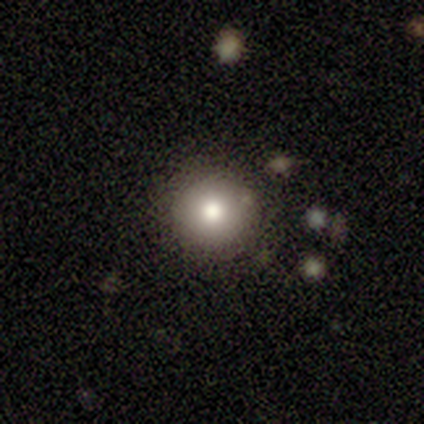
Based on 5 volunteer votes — This appears to be a smooth galaxy with no disk features (80%) that is round (100%). Merging: none (100%).